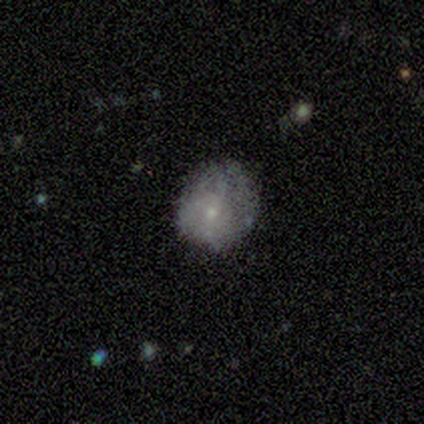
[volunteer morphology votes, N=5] smooth_or_featured: featured or disk (p=0.60) [alt: smooth p=0.40]
disk_edge_on: no (p=1.00)
bar: no (p=1.00)
has_spiral_arms: no (p=0.67) [alt: yes p=0.33]
bulge_size: small (p=1.00)
merging: none (p=0.40) [tied with: minor disturbance p=0.40]